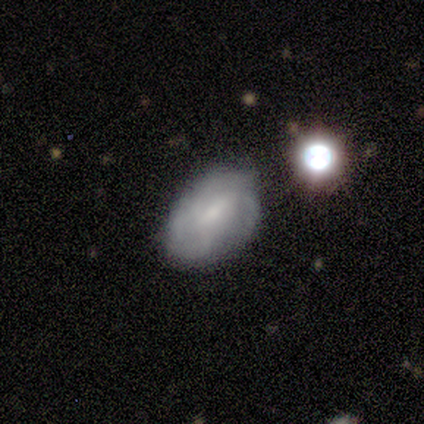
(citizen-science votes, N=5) Smooth or featured: featured or disk — 80% (star or artifact — 20%)
Edge-on disk: no — 100%
Bar: weak — 75% (strong — 25%)
Spiral arms: yes — 100%
Spiral winding: medium — 50% (tight — 25%)
Spiral arm count: can't tell — 50% (2 — 25%)
Bulge size: small — 75% (none — 25%)
Merging: minor disturbance — 75% (none — 25%)